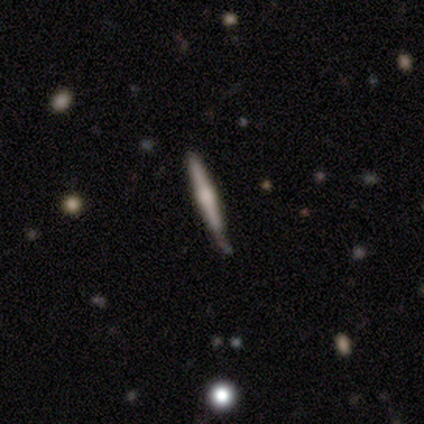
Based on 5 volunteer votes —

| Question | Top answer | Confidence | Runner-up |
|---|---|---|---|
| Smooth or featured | featured or disk | 80% | smooth (20%) |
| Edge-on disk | yes | 100% | — |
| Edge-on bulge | rounded | 50% | boxy (25%) |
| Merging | none | 60% | minor disturbance (40%) |